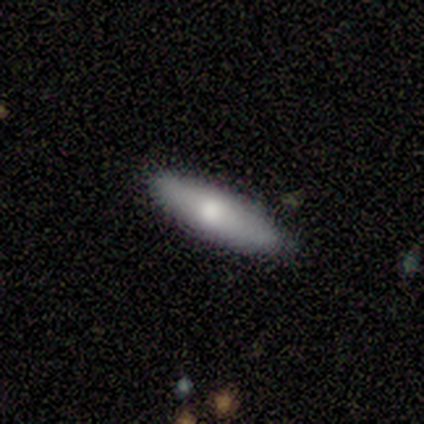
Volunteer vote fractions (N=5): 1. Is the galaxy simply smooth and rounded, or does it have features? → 100% smooth, 0% featured or disk, 0% star or artifact.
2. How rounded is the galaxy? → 100% cigar-shaped, 0% round, 0% in between.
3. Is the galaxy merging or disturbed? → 100% none, 0% minor disturbance, 0% major disturbance, 0% merger.